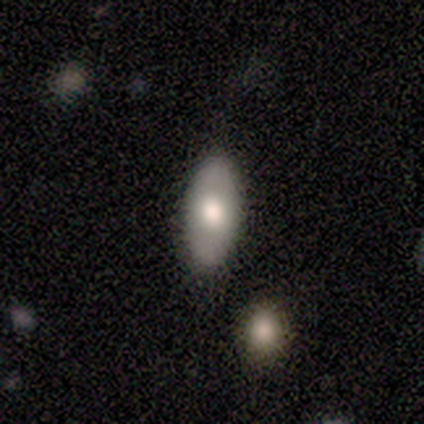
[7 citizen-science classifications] Smooth or featured? smooth (86%)
How rounded? in between (100%)
Merging? none (100%)